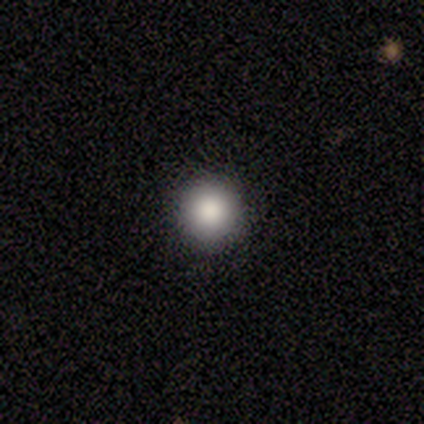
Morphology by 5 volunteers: type=smooth (100%); roundness=round (100%); merging=none (100%).